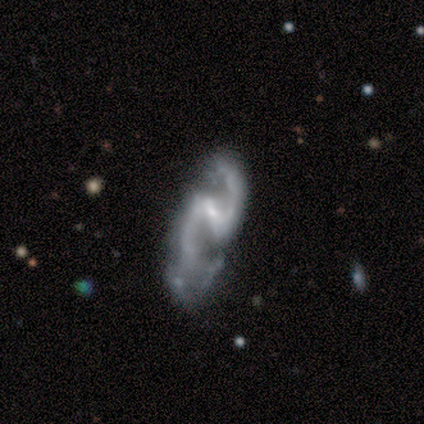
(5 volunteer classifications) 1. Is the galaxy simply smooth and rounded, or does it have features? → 60% featured or disk, 40% smooth, 0% star or artifact.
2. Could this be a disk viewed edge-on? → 100% no, 0% yes.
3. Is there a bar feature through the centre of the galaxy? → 67% strong, 33% weak, 0% no.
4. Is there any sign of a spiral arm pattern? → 100% yes, 0% no.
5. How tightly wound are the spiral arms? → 67% loose, 33% medium, 0% tight.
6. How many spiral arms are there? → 100% 2, 0% 1, 0% 3, 0% 4, 0% more than 4, 0% can't tell.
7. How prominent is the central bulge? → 67% moderate, 33% small, 0% dominant, 0% large, 0% none.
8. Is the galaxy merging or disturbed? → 40% none (tied), 40% merger (tied), 20% major disturbance, 0% minor disturbance.